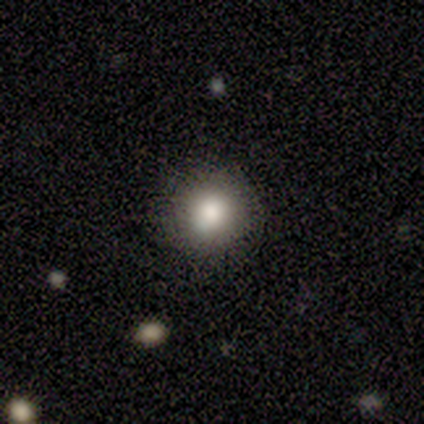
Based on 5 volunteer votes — smooth-or-featured: smooth: 80% | star or artifact: 20% | featured or disk: 0%
  how-rounded: round: 100% | in between: 0% | cigar-shaped: 0%
  merging: none: 100% | minor disturbance: 0% | major disturbance: 0% | merger: 0%